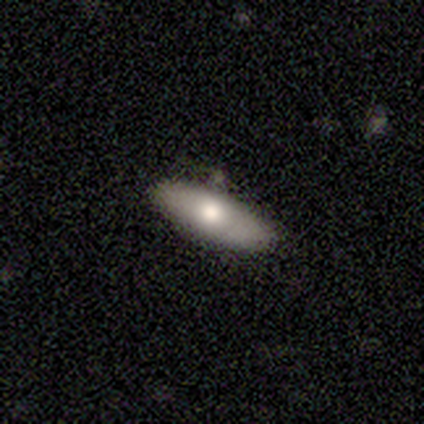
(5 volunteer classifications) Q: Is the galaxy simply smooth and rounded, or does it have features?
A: smooth — 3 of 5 (60%).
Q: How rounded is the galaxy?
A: in between — 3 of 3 (100%).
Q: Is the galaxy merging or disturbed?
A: none — 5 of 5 (100%).